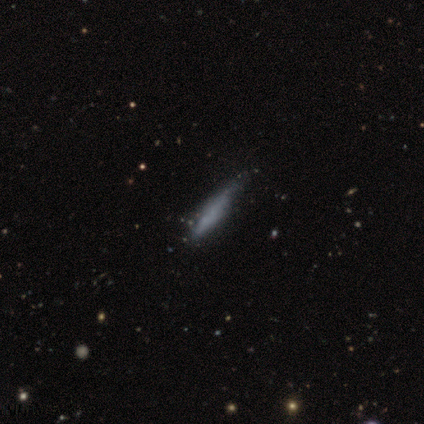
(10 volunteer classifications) Smooth or featured? 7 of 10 (70%) said smooth. How rounded? 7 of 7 (100%) said cigar-shaped. Merging? 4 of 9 (44%, tied with minor disturbance) said none.